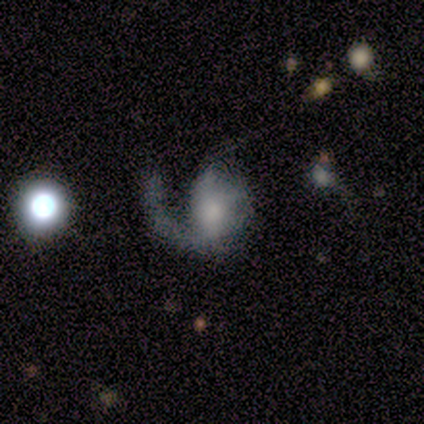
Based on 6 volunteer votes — Smooth or featured?
  - featured or disk: 50% *
  - smooth: 33%
  - star or artifact: 17%
Edge-on disk?
  - no: 100% *
  - yes: 0%
Bar?
  - no: 67% *
  - weak: 33%
  - strong: 0%
Spiral arms?
  - yes: 100% *
  - no: 0%
Spiral winding?
  - loose: 100% *
  - tight: 0%
  - medium: 0%
Spiral arm count?
  - 1: 100% *
  - 2: 0%
  - 3: 0%
  - 4: 0%
  - more than 4: 0%
  - can't tell: 0%
Bulge size?
  - none: 67% *
  - small: 33%
  - dominant: 0%
  - large: 0%
  - moderate: 0%
Merging?
  - none: 60% *
  - major disturbance: 40%
  - minor disturbance: 0%
  - merger: 0%